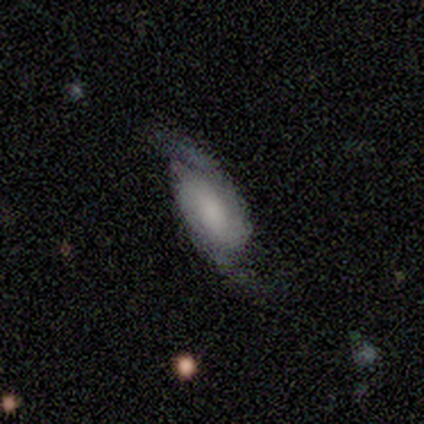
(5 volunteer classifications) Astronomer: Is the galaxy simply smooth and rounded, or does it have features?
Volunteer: featured or disk — 100%.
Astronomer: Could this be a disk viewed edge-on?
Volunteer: no — 80%.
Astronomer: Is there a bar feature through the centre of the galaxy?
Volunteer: no — 100%.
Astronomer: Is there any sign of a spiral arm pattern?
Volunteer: yes — 100%.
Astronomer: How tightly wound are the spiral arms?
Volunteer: loose — 50%.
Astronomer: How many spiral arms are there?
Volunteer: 2 — 75%.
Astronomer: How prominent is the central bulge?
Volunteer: none — 50%.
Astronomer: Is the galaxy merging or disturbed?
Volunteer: minor disturbance — 60% (runner-up: none, 40%).